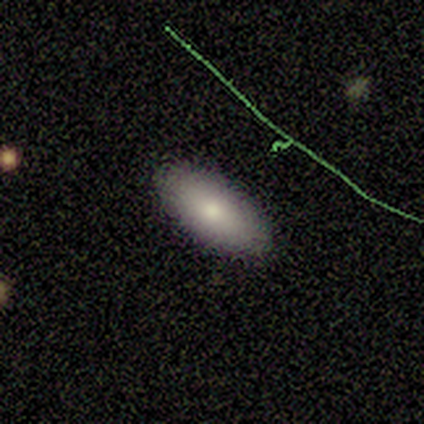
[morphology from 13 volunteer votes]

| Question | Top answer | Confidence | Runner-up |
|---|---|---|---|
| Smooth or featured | smooth | 92% | featured or disk (8%) |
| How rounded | in between | 75% | cigar-shaped (25%) |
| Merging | none | 100% | — |